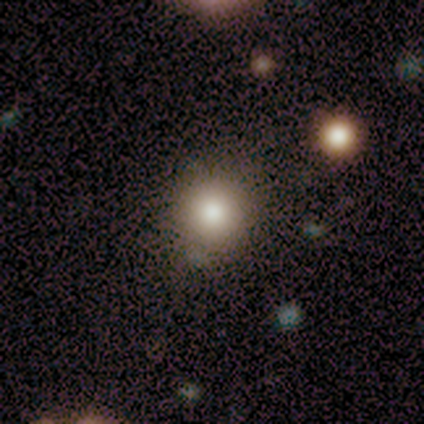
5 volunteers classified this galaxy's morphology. smooth-or-featured: smooth: 100% | featured or disk: 0% | star or artifact: 0%
  how-rounded: round: 100% | in between: 0% | cigar-shaped: 0%
  merging: none: 80% | minor disturbance: 20% | major disturbance: 0% | merger: 0%